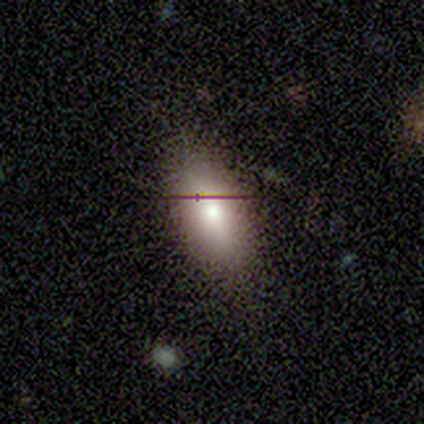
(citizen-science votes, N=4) Q: Smooth or featured?
A: smooth (100%)
Q: How rounded?
A: in between (75%); runner-up: cigar-shaped (25%)
Q: Merging?
A: none (75%); runner-up: minor disturbance (25%)